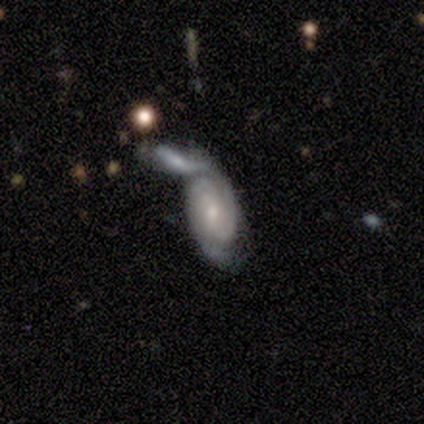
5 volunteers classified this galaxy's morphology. A featured or disk galaxy (80%) with a weak bar (50%, tied with no), tight (50%) spiral arms (100%) and a moderate central bulge (50%, tied with small). Merging: merger (80%).